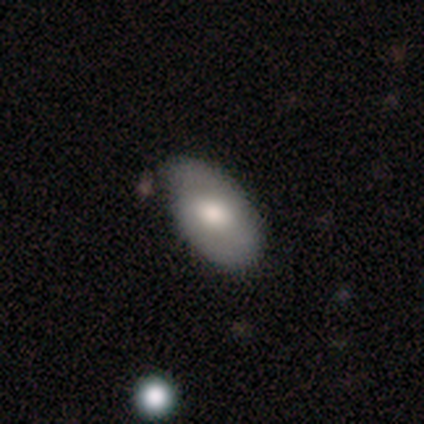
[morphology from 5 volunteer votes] smooth_or_featured: smooth (p=0.80) [alt: featured or disk p=0.20]
how_rounded: in between (p=1.00)
merging: none (p=1.00)